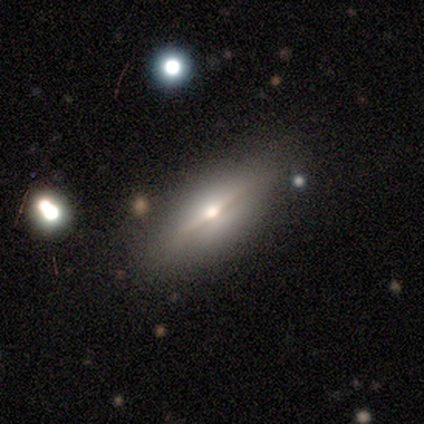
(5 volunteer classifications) Smooth or featured: featured or disk — 40% (tied with star or artifact — 40%)
Edge-on disk: yes — 100%
Edge-on bulge: boxy — 50% (tied with rounded — 50%)
Merging: minor disturbance — 67% (none — 33%)